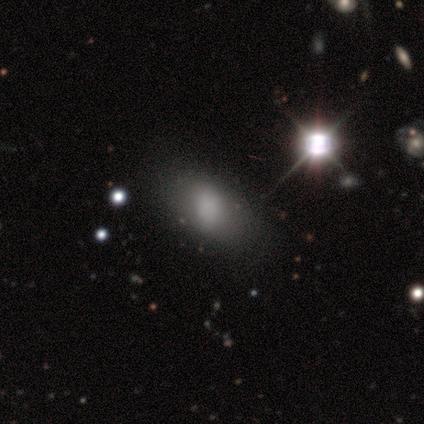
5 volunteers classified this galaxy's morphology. smooth 100%, featured or disk 0%, star or artifact 0%. Down the decision tree: how rounded — in between (100%); merging — none (60%).